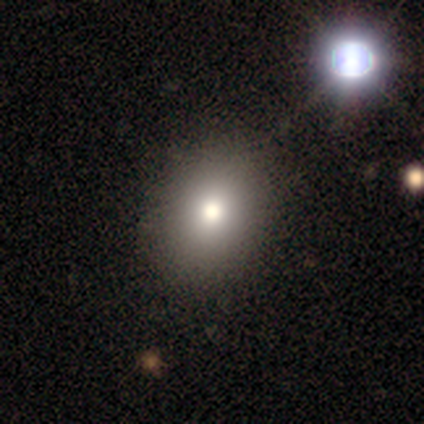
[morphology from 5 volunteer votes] smooth 60%, featured or disk 40%, star or artifact 0%. Down the decision tree: how rounded — round (67%); merging — none (100%).